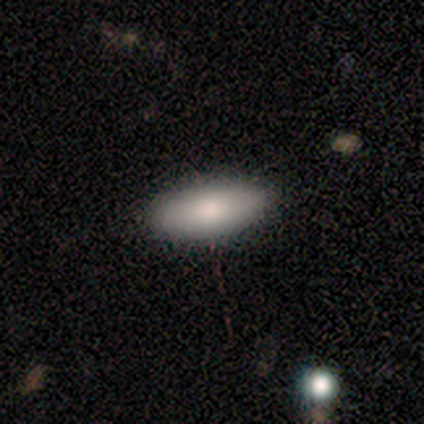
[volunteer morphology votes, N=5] This is likely a smooth galaxy (60%). How rounded: clearly in between (100%). Merging: likely none (75%).